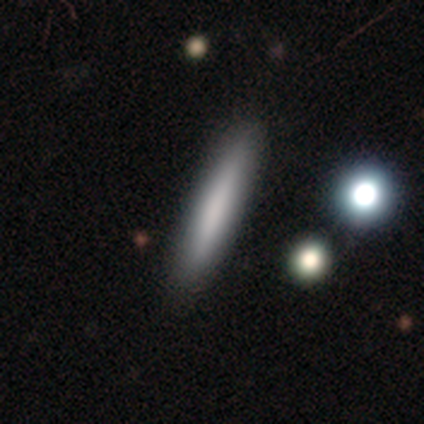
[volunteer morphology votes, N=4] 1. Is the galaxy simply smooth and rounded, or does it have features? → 75% smooth, 25% star or artifact, 0% featured or disk.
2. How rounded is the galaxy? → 100% cigar-shaped, 0% round, 0% in between.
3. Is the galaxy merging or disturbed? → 67% none, 33% major disturbance, 0% minor disturbance, 0% merger.